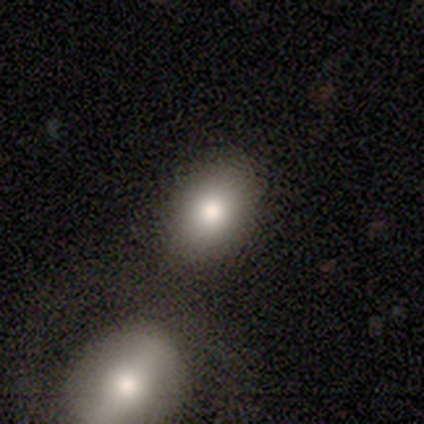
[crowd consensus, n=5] Consensus on every question: smooth or featured — smooth (100%); how rounded — in between (100%); merging — none (100%).